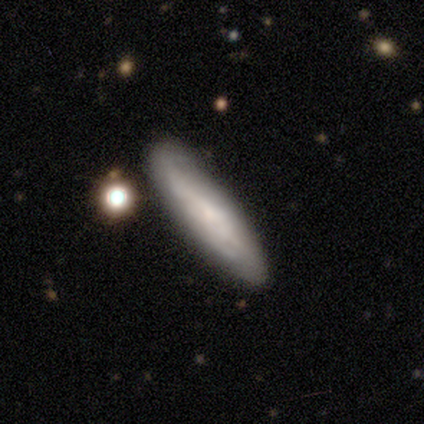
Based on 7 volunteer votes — Smooth or featured: smooth — 43% (tied with featured or disk — 43%)
How rounded: cigar-shaped — 67% (in between — 33%)
Merging: none — 83% (merger — 17%)